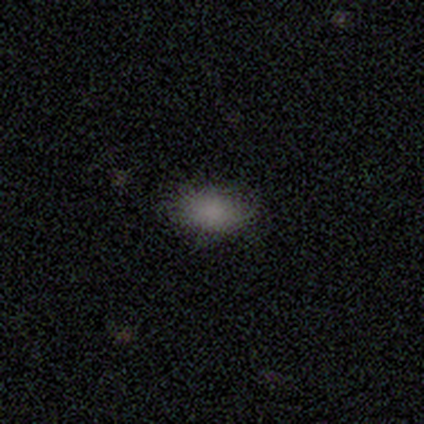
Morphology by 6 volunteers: Volunteers were most divided on "merging": none: 67%, minor disturbance: 33%, major disturbance: 0%, merger: 0%. More confident: how rounded — in between (100%); smooth or featured — smooth (83%).